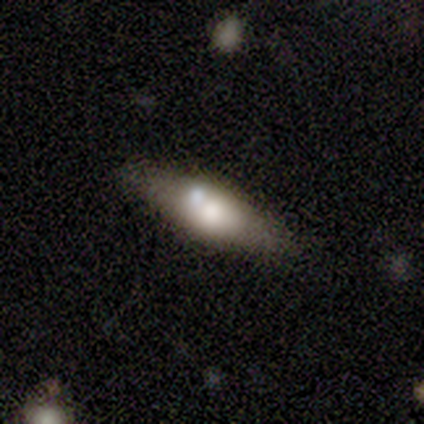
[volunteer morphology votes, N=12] Smooth or featured?
  - smooth: 67% *
  - featured or disk: 25%
  - star or artifact: 8%
How rounded?
  - in between: 62% *
  - cigar-shaped: 38%
  - round: 0%
Merging?
  - none: 64% *
  - merger: 18%
  - minor disturbance: 9%
  - major disturbance: 9%